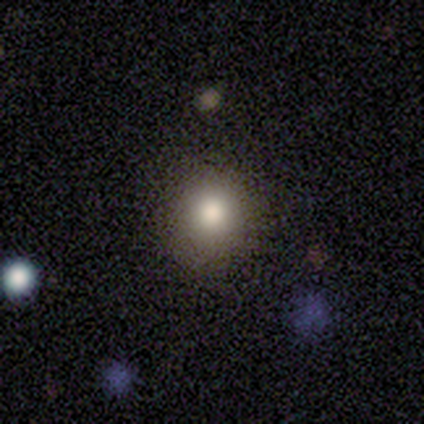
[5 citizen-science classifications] smooth_or_featured: smooth (p=0.80) [alt: featured or disk p=0.20]
how_rounded: round (p=1.00)
merging: none (p=1.00)